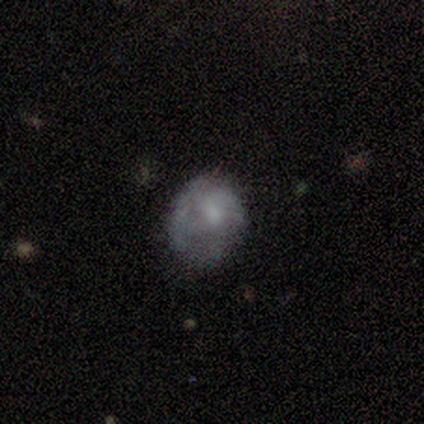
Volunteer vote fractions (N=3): smooth-or-featured: featured or disk: 67% | smooth: 33% | star or artifact: 0%
  disk-edge-on: no: 100% | yes: 0%
    bar: no: 100% | strong: 0% | weak: 0%
    has-spiral-arms: no: 100% | yes: 0%
    bulge-size: moderate: 50% (tied) | none: 50% (tied) | dominant: 0% | large: 0% | small: 0%
  merging: minor disturbance: 67% | major disturbance: 33% | none: 0% | merger: 0%